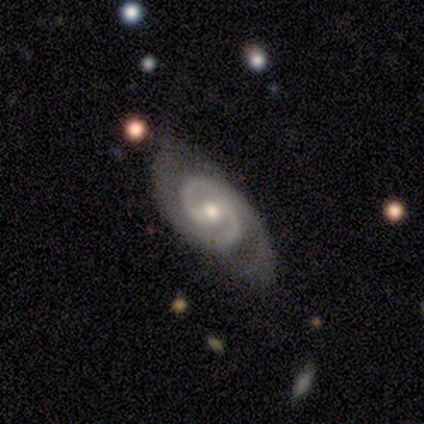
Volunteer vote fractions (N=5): smooth_or_featured: featured or disk (p=0.80) [alt: smooth p=0.20]
disk_edge_on: no (p=1.00)
bar: weak (p=0.50) [tied with: no p=0.50]
has_spiral_arms: yes (p=1.00)
spiral_winding: tight (p=0.50) [tied with: medium p=0.50]
spiral_arm_count: 2 (p=0.75) [alt: 1 p=0.25]
bulge_size: moderate (p=0.50) [tied with: small p=0.50]
merging: none (p=0.80) [alt: minor disturbance p=0.20]